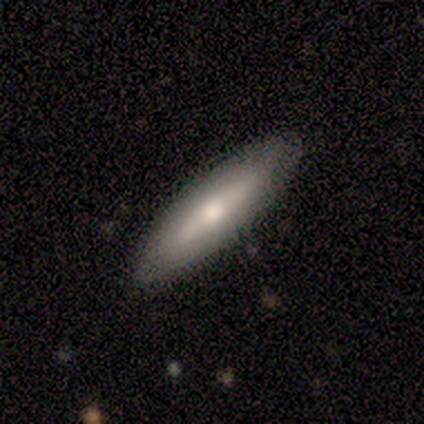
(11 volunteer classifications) smooth_or_featured: smooth (p=0.45) [tied with: featured or disk p=0.45]
how_rounded: cigar-shaped (p=0.60) [alt: in between p=0.40]
merging: none (p=1.00)